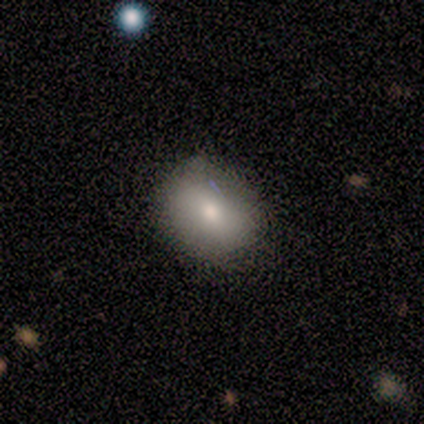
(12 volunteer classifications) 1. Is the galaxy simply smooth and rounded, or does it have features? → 83% smooth, 8% featured or disk, 8% star or artifact.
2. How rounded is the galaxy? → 70% in between, 30% round, 0% cigar-shaped.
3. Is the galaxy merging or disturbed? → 82% none, 9% minor disturbance, 9% merger, 0% major disturbance.